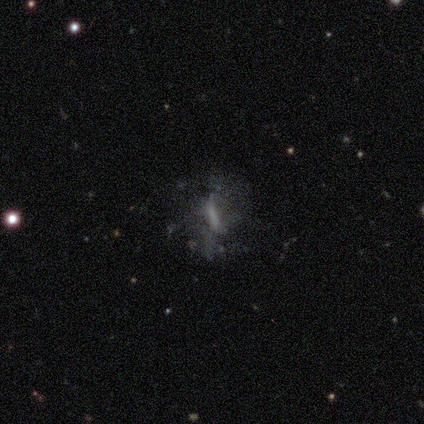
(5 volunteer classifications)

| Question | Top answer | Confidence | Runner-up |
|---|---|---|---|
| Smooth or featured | featured or disk | 60% | star or artifact (40%) |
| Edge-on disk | no | 100% | — |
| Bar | weak | 67% | no (33%) |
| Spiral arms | yes | 67% | no (33%) |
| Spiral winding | medium | 50% | tied: loose (50%) |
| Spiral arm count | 2 | 100% | — |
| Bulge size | large | 33% | tied: small (33%), none (33%) |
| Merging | none | 67% | merger (33%) |